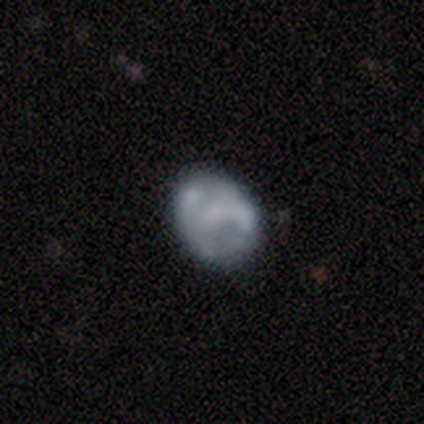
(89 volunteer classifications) This is possibly a featured or disk galaxy (52%). It is clearly not viewed edge-on (91%). Bar: possibly no (60%). Spiral arm pattern: possibly no (55%). Central bulge: possibly none (60%). Merging: likely none (61%).